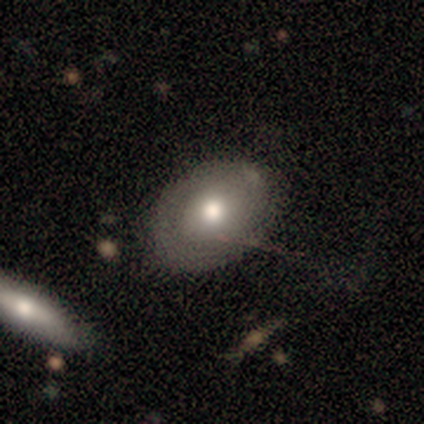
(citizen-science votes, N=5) Morphology: type=featured or disk (60%); edge-on=no (100%); bar=no (100%); spiral arms=no (67%); bulge=large (33%, tied with moderate and small); merging=none (80%).